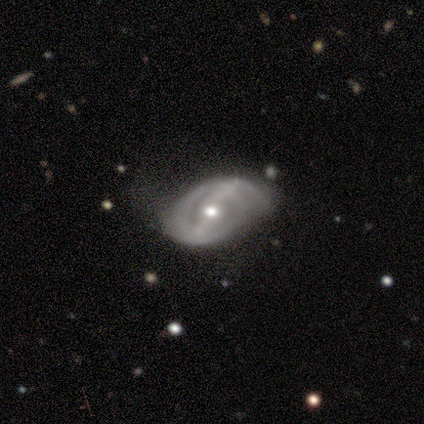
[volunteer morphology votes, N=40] A featured or disk galaxy (88%) with a strong bar (59%), 2 (61%) tight (74%) spiral arms (91%) and a moderate central bulge (68%).

Vote fractions:
- Smooth or featured? featured or disk: 88% / smooth: 8% / star or artifact: 5%
- Edge-on disk? no: 97% / yes: 3%
- Bar? strong: 59% / weak: 32% / no: 9%
- Spiral arms? yes: 91% / no: 9%
- Spiral winding? tight: 74% / loose: 16% / medium: 10%
- Spiral arm count? 2: 61% / can't tell: 29% / 3: 10% / 1: 0% / 4: 0% / more than 4: 0%
- Bulge size? moderate: 68% / small: 24% / dominant: 6% / large: 3% / none: 0%
- Merging? none: 58% / minor disturbance: 32% / major disturbance: 11% / merger: 0%